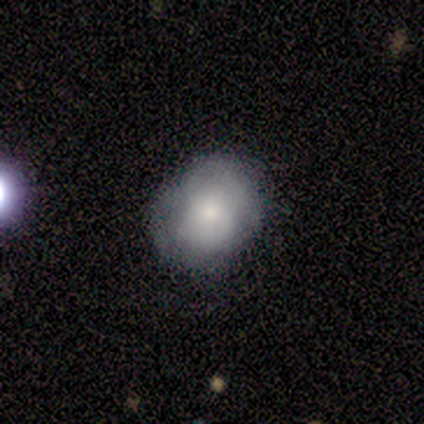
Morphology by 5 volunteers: Smooth or featured? smooth (40%, tied with star or artifact)
How rounded? round (50%, tied with in between)
Merging? none (67%)